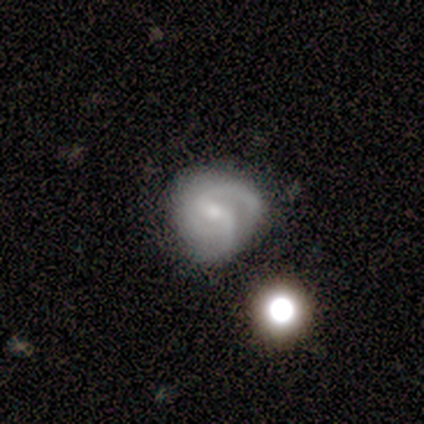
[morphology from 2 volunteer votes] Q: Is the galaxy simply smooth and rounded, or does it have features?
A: featured or disk — 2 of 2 (100%).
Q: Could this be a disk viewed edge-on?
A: no — 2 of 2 (100%).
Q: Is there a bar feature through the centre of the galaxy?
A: strong — 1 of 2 (50%, tied with weak).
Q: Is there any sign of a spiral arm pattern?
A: yes — 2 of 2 (100%).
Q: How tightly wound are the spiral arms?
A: medium — 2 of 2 (100%).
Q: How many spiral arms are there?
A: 1 — 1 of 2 (50%, tied with 2).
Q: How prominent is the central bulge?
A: moderate — 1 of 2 (50%, tied with small).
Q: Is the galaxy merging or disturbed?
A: none — 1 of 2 (50%, tied with minor disturbance).